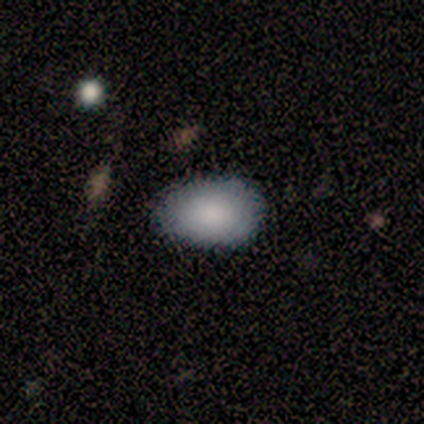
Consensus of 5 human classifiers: Overall: smooth (100%). How rounded: in between (80%). Merging: none (60%; minor disturbance 40%).